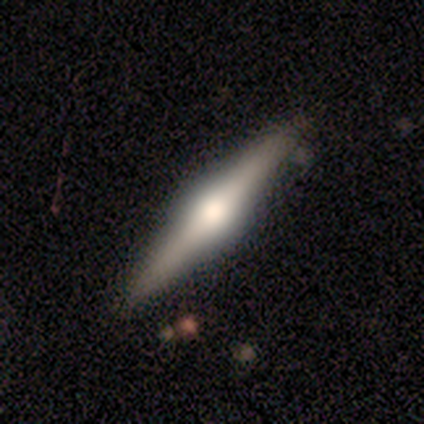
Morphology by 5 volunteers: Smooth or featured?
  - featured or disk: 60% *
  - smooth: 40%
  - star or artifact: 0%
Edge-on disk?
  - yes: 100% *
  - no: 0%
Edge-on bulge?
  - rounded: 100% *
  - boxy: 0%
  - none: 0%
Merging?
  - none: 80% *
  - minor disturbance: 20%
  - major disturbance: 0%
  - merger: 0%